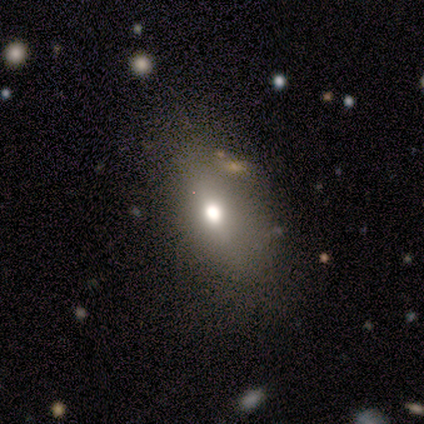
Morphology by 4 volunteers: A smooth galaxy with no disk features (75%) that is in between round and cigar-shaped (67%).

Vote fractions:
- Smooth or featured? smooth: 75% / featured or disk: 25% / star or artifact: 0%
- How rounded? in between: 67% / round: 33% / cigar-shaped: 0%
- Merging? none: 75% / minor disturbance: 25% / major disturbance: 0% / merger: 0%